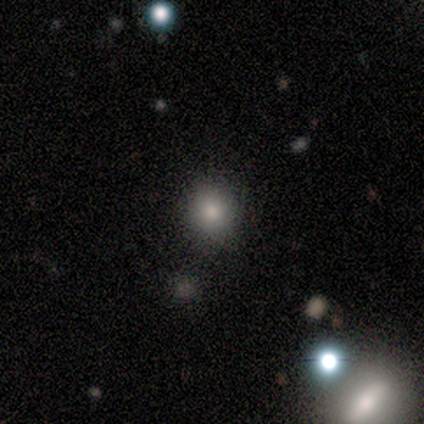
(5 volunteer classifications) Volunteers were most divided on "smooth or featured" (2-way tie): smooth: 40%, star or artifact: 40%, featured or disk: 20%. More confident: how rounded — round (100%); merging — none (100%).